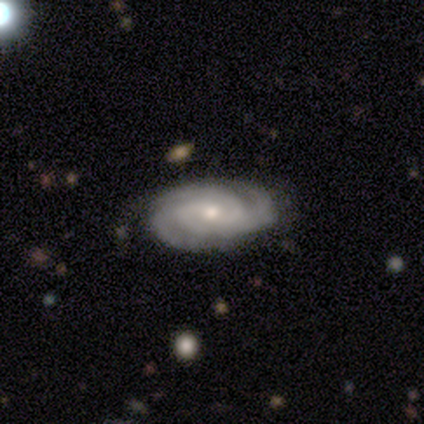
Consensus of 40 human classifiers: Overall: featured or disk (98%). Edge-on disk: no (97%). Bar: no (63%; weak 26%). Spiral arms: yes (92%). Spiral arm count: 3 (57%; 4 17%). Spiral winding: tight (83%). Bulge size: small (58%; moderate 37%). Merging: none (69%).